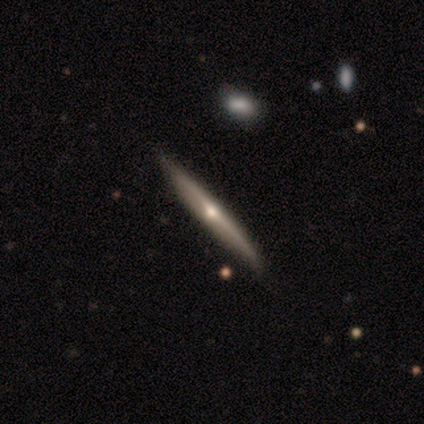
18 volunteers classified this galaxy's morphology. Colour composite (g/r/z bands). It shows a featured or disk galaxy (83%) viewed edge-on (100%) with a rounded central bulge (80%). Merging: none (94%).